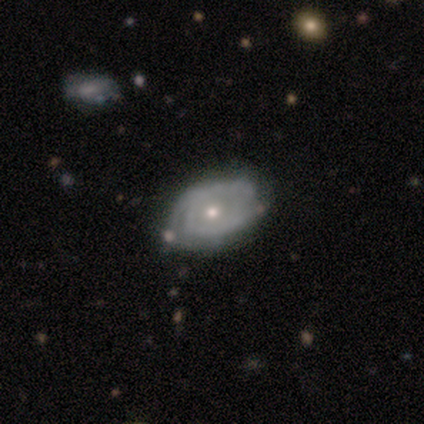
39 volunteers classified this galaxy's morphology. Smooth or featured? featured or disk (79%)
Edge-on disk? no (97%)
Bar? no (67%)
Spiral arms? yes (87%)
Spiral winding? tight (65%)
Spiral arm count? 2 (62%)
Bulge size? small (57%)
Merging? none (69%)